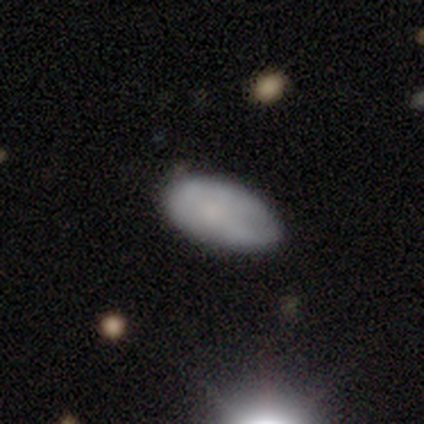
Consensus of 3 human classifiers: Q: Smooth or featured?
A: smooth (100%)
Q: How rounded?
A: in between (100%)
Q: Merging?
A: none (100%)